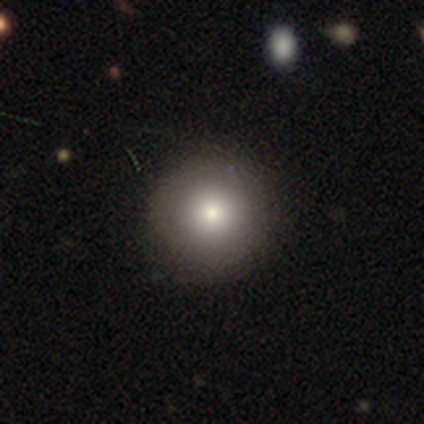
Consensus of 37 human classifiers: Volunteers were most divided on "merging": none: 74%, minor disturbance: 3%, merger: 3%, major disturbance: 0%. More confident: how rounded — round (94%); smooth or featured — smooth (84%).